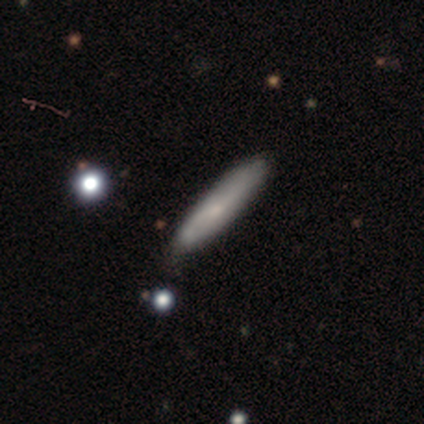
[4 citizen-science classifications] Overall: smooth (75%). How rounded: cigar-shaped (100%). Merging: none (100%).